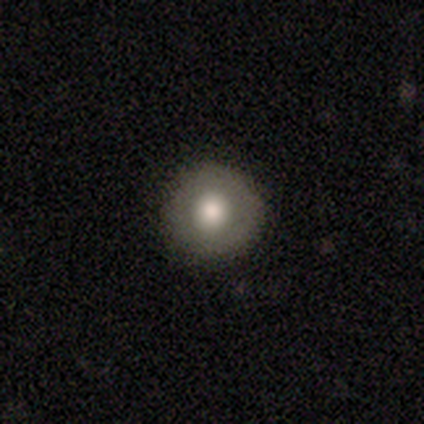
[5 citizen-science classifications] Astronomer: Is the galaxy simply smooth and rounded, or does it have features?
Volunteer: smooth — 80%.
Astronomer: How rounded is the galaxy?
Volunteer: round — 100%.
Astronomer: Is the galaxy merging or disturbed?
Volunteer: none — 80%.